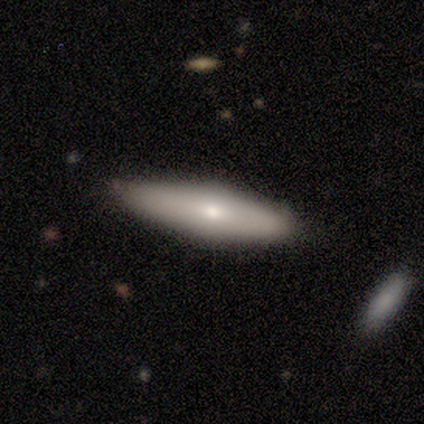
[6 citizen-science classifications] Smooth or featured?
  - smooth: 50% * (tied)
  - featured or disk: 50% * (tied)
  - star or artifact: 0%
How rounded?
  - cigar-shaped: 67% *
  - in between: 33%
  - round: 0%
Merging?
  - none: 100% *
  - minor disturbance: 0%
  - major disturbance: 0%
  - merger: 0%